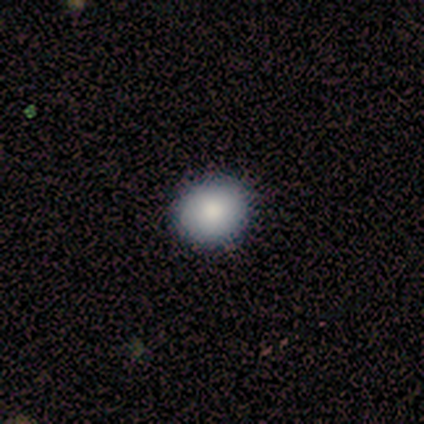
Smooth or featured? 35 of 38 (92%) said smooth. How rounded? 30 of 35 (86%) said round. Merging? 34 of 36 (94%) said none.